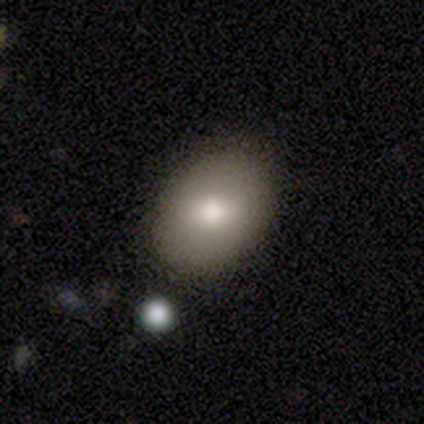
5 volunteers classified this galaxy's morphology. This appears to be a smooth galaxy with no disk features (80%) that is in between round and cigar-shaped (100%). Merging: none (80%).